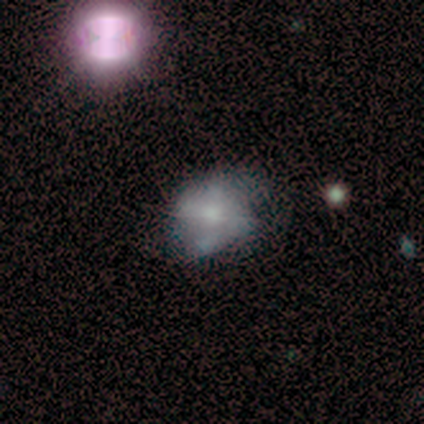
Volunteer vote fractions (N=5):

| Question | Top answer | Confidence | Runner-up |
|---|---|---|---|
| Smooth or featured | featured or disk | 80% | smooth (20%) |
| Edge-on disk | no | 100% | — |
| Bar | no | 75% | weak (25%) |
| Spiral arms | no | 75% | yes (25%) |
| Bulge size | moderate | 50% | large (25%) |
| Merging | none | 60% | minor disturbance (20%) |